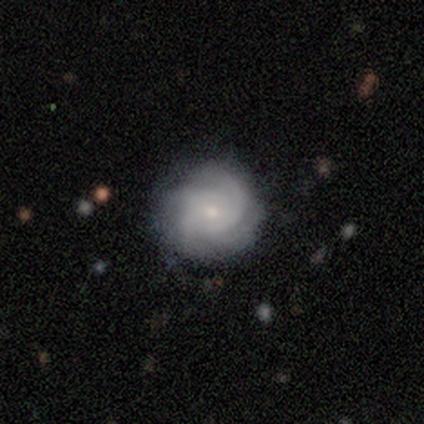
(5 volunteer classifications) A featured or disk galaxy (100%) with no bar (100%), 4 (50%) medium (100%) spiral arms (80%) and a small central bulge (80%).

Vote fractions:
- Smooth or featured? featured or disk: 100% / smooth: 0% / star or artifact: 0%
- Edge-on disk? no: 100% / yes: 0%
- Bar? no: 100% / strong: 0% / weak: 0%
- Spiral arms? yes: 80% / no: 20%
- Spiral winding? medium: 100% / tight: 0% / loose: 0%
- Spiral arm count? 4: 50% / 2: 25% / 3: 25% / 1: 0% / more than 4: 0% / can't tell: 0%
- Bulge size? small: 80% / moderate: 20% / dominant: 0% / large: 0% / none: 0%
- Merging? none: 80% / major disturbance: 20% / minor disturbance: 0% / merger: 0%